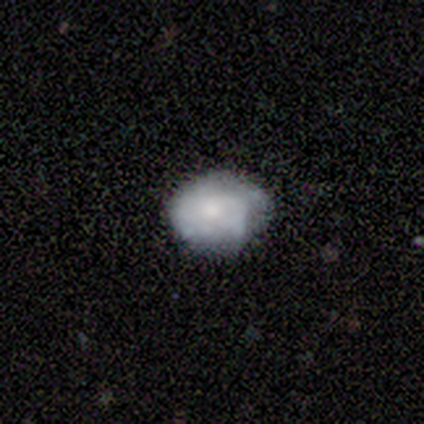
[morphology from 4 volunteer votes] Smooth or featured? 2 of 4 (50%, tied with featured or disk) said smooth. How rounded? 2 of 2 (100%) said round. Merging? 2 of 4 (50%, tied with minor disturbance) said none.